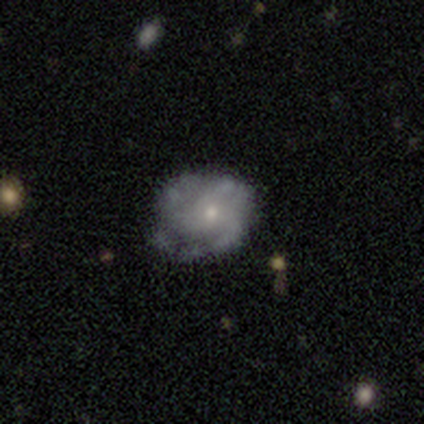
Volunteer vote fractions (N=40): This is likely a featured or disk galaxy (72%). It is clearly not viewed edge-on (100%). Bar: likely no (79%). Spiral arm pattern: clearly yes (97%). Spiral arm count: marginally 3 (39%). Spiral winding: possibly medium (50%). Central bulge: likely small (69%). Merging: possibly none (53%).